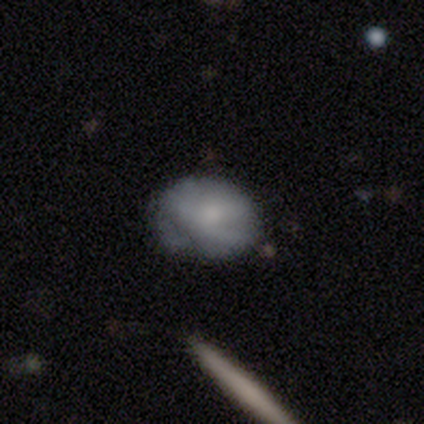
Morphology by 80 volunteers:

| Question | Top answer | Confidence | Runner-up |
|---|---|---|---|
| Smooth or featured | smooth | 69% | featured or disk (22%) |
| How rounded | in between | 60% | round (38%) |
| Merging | none | 62% | minor disturbance (27%) |